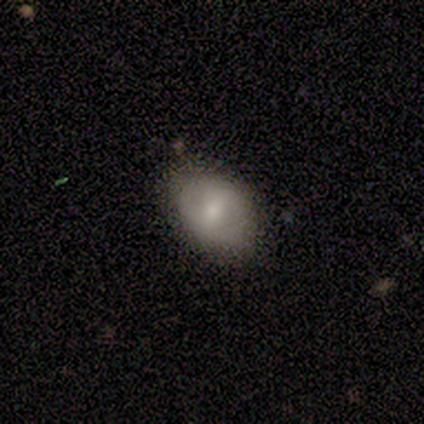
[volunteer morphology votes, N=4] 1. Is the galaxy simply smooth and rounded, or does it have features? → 50% smooth (tied), 50% featured or disk (tied), 0% star or artifact.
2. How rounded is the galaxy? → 100% in between, 0% round, 0% cigar-shaped.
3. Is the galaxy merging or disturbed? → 100% none, 0% minor disturbance, 0% major disturbance, 0% merger.